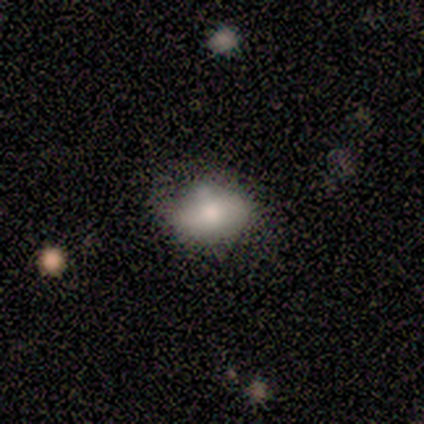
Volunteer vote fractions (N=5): Smooth or featured? 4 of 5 (80%) said smooth. How rounded? 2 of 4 (50%, tied with in between) said round. Merging? 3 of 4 (75%) said none.